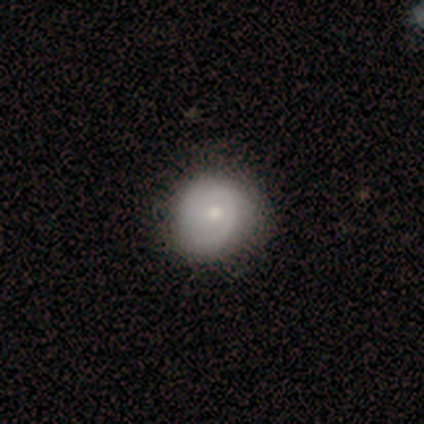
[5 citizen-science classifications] Q: Smooth or featured?
A: smooth (80%); runner-up: featured or disk (20%)
Q: How rounded?
A: round (50%); tied with: in between (50%)
Q: Merging?
A: none (100%)